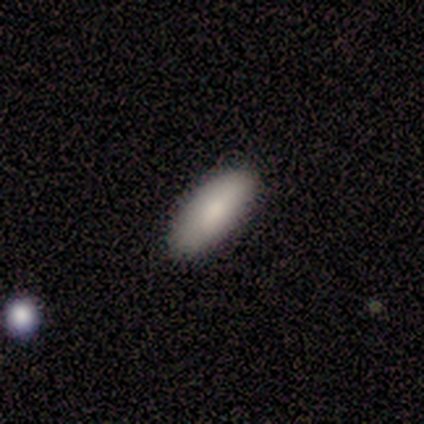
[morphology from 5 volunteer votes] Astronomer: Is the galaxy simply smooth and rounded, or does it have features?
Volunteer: smooth — 100%.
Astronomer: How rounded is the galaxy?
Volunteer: in between — 100%.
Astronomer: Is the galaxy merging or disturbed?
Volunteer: none — 100%.